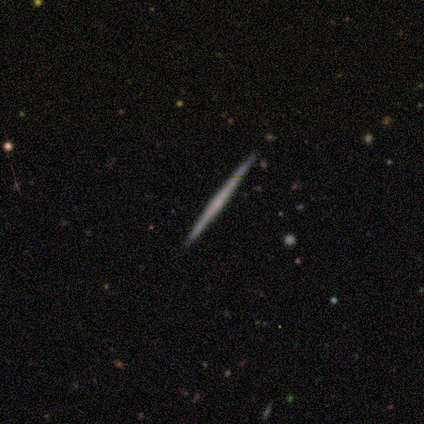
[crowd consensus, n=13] Smooth or featured? 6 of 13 (46%) said featured or disk. Edge-on disk? 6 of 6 (100%) said yes. Edge-on bulge? 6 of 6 (100%) said none. Merging? 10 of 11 (91%) said none.